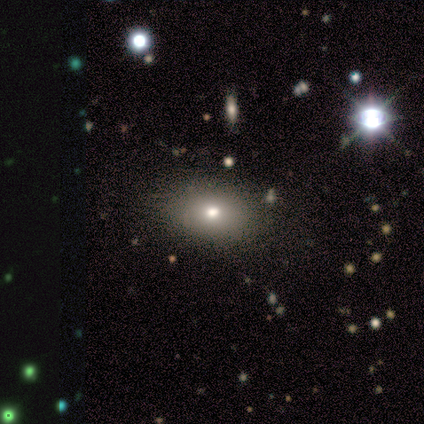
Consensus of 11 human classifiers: Morphology: type=smooth (73%); roundness=in between (100%); merging=none (89%).